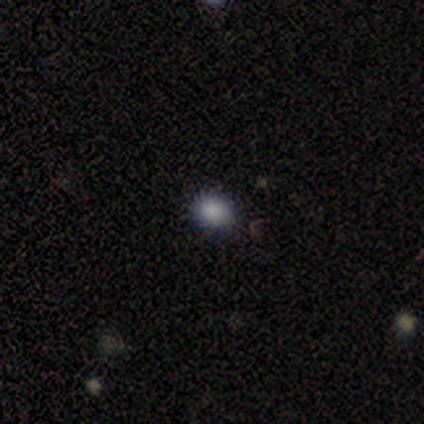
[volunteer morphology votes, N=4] smooth_or_featured: smooth (p=1.00)
how_rounded: round (p=0.50) [tied with: in between p=0.50]
merging: none (p=1.00)